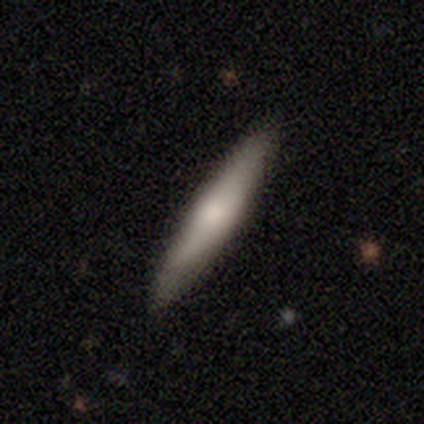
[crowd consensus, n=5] Smooth or featured? smooth (80%)
How rounded? cigar-shaped (75%)
Merging? none (100%)